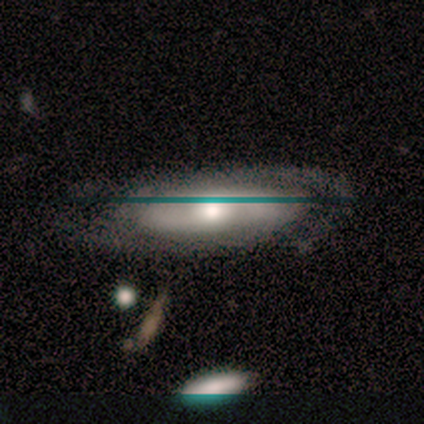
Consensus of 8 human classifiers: Smooth or featured: featured or disk — 75% (smooth — 12%)
Edge-on disk: no — 83% (yes — 17%)
Bar: no — 60% (weak — 40%)
Spiral arms: yes — 100%
Spiral winding: tight — 60% (medium — 40%)
Spiral arm count: 2 — 60% (can't tell — 40%)
Bulge size: moderate — 100%
Merging: none — 71% (minor disturbance — 29%)